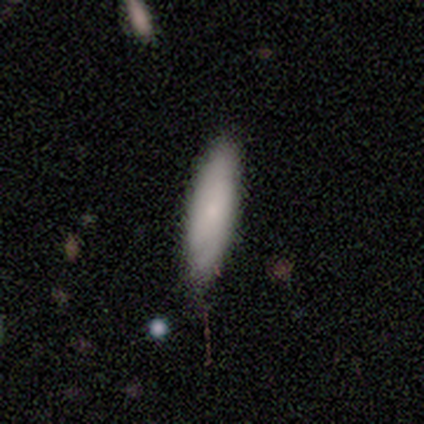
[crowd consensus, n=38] This is clearly a smooth galaxy (82%). How rounded: possibly cigar-shaped (52%). Merging: clearly none (84%).